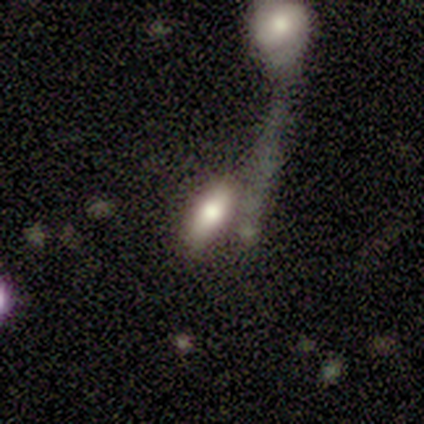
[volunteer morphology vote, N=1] smooth 100%, featured or disk 0%, star or artifact 0%. Down the decision tree: how rounded — in between (100%); merging — minor disturbance (100%).